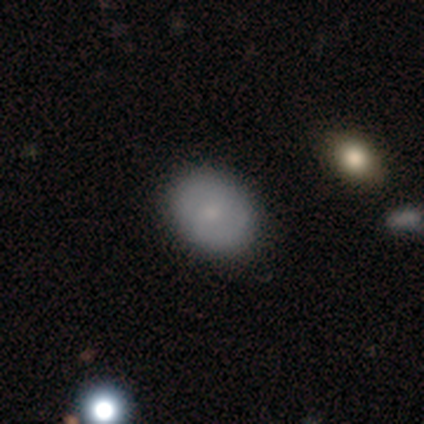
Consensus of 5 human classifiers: Overall: smooth (80%). How rounded: round (50%, tied with in between). Merging: none (60%; minor disturbance 40%).